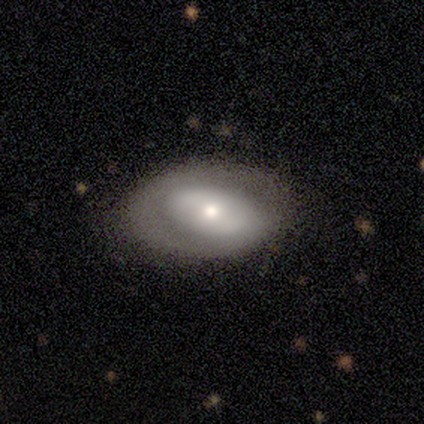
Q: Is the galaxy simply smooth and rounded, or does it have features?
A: featured or disk — 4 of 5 (80%).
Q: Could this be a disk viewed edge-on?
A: yes — 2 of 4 (50%, tied with no).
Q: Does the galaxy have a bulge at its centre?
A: boxy — 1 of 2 (50%, tied with rounded).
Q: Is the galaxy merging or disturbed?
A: none — 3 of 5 (60%).